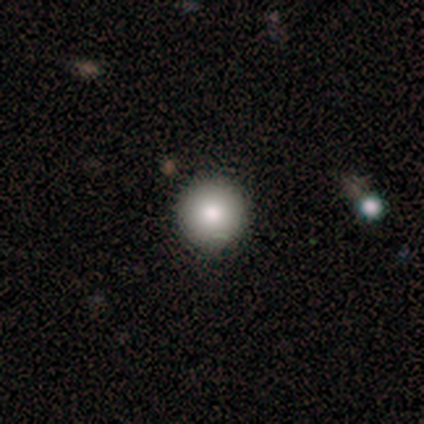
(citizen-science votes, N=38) Q: Smooth or featured?
A: smooth (74%); runner-up: star or artifact (18%)
Q: How rounded?
A: round (100%)
Q: Merging?
A: none (90%); runner-up: merger (6%)